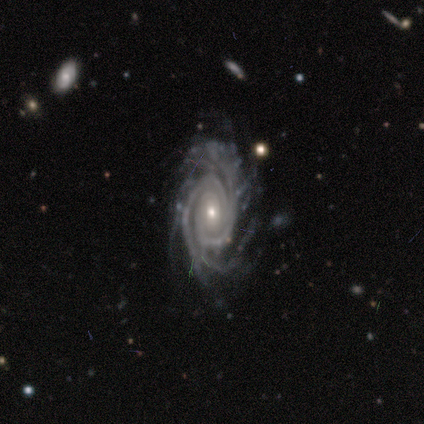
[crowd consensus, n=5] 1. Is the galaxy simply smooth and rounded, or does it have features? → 100% featured or disk, 0% smooth, 0% star or artifact.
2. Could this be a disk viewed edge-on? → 100% no, 0% yes.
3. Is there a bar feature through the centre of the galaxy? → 40% strong (tied), 40% no (tied), 20% weak.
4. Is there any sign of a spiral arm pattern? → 100% yes, 0% no.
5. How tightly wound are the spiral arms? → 80% tight, 20% medium, 0% loose.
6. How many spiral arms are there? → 40% 2 (tied), 40% 3 (tied), 20% can't tell, 0% 1, 0% 4, 0% more than 4.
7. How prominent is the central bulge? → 60% moderate, 40% small, 0% dominant, 0% large, 0% none.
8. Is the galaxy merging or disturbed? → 60% none, 20% minor disturbance, 20% major disturbance, 0% merger.